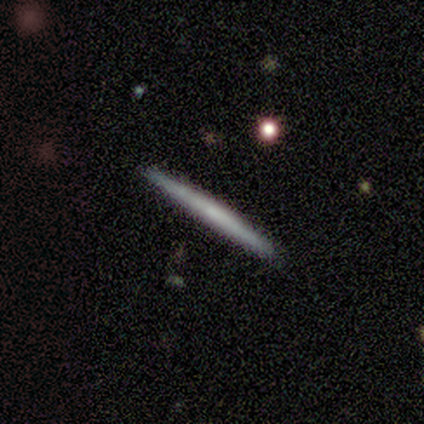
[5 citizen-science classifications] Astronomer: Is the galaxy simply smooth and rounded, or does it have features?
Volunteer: featured or disk — 60% (runner-up: smooth, 40%).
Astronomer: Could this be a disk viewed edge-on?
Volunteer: yes — 100%.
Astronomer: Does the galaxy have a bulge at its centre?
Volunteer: none — 100%.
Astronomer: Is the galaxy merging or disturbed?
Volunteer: none — 100%.